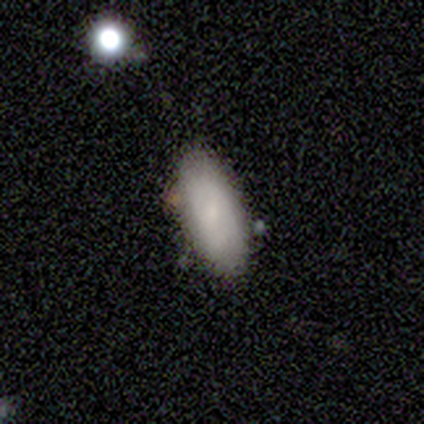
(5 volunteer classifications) smooth 100%, featured or disk 0%, star or artifact 0%. Down the decision tree: how rounded — in between (80%); merging — none (100%).